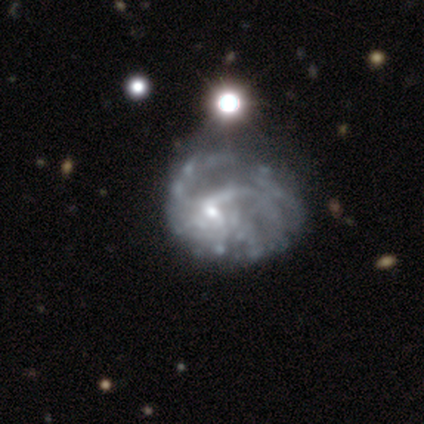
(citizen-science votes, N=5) Q: Smooth or featured?
A: featured or disk (100%)
Q: Edge-on disk?
A: no (100%)
Q: Bar?
A: no (100%)
Q: Spiral arms?
A: yes (80%); runner-up: no (20%)
Q: Spiral winding?
A: loose (75%); runner-up: medium (25%)
Q: Spiral arm count?
A: 1 (25%); tied with: 2 (25%); 3 (25%); can't tell (25%)
Q: Bulge size?
A: small (100%)
Q: Merging?
A: none (60%); runner-up: minor disturbance (20%)